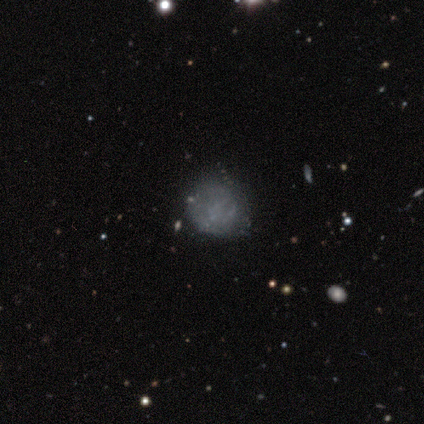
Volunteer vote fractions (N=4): smooth-or-featured: smooth: 75% | star or artifact: 25% | featured or disk: 0%
  how-rounded: round: 67% | in between: 33% | cigar-shaped: 0%
  merging: none: 100% | minor disturbance: 0% | major disturbance: 0% | merger: 0%